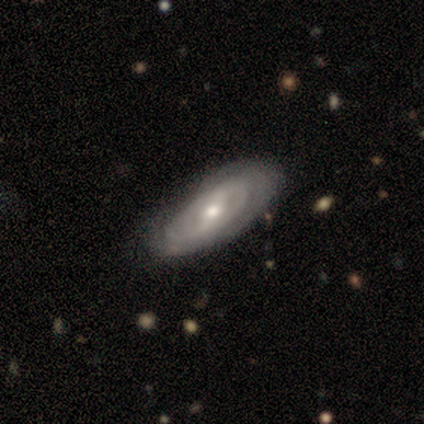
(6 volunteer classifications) Overall: featured or disk (83%). Edge-on disk: no (60%; yes 40%). Bar: weak (67%; strong 33%). Spiral arms: no (67%; yes 33%). Bulge size: small (67%; moderate 33%). Merging: none (67%).